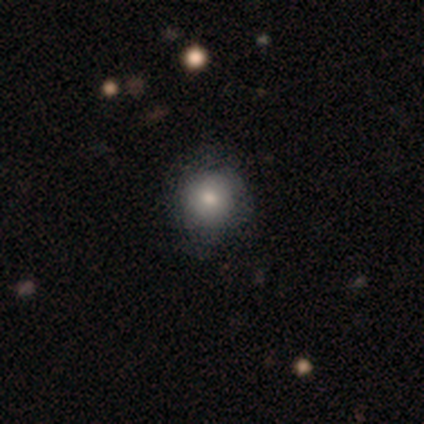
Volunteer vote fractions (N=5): Q: Smooth or featured?
A: smooth (80%); runner-up: featured or disk (20%)
Q: How rounded?
A: round (100%)
Q: Merging?
A: none (100%)